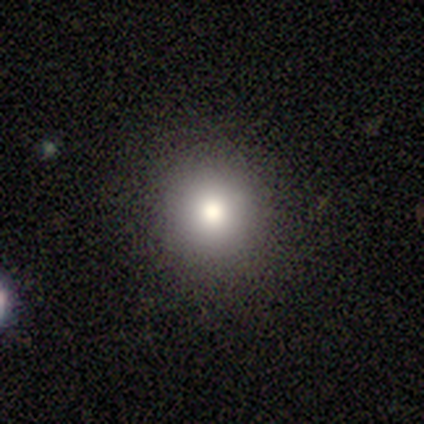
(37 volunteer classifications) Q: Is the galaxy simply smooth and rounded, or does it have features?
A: smooth — 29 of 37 (78%).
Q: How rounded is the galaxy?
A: round — 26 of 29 (90%).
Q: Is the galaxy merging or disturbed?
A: none — 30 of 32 (94%).